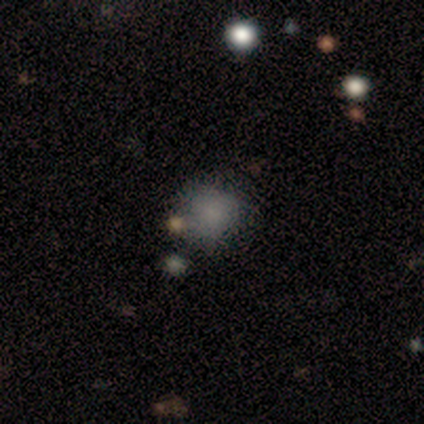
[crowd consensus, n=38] Smooth or featured? smooth (82%)
How rounded? round (77%)
Merging? none (70%)